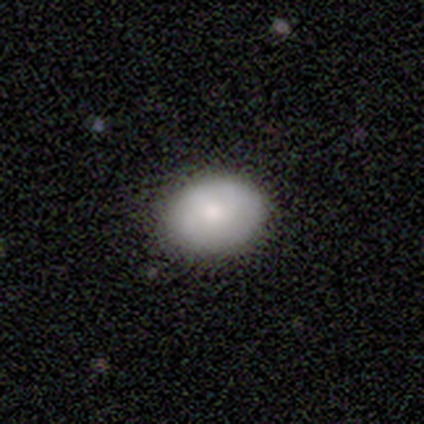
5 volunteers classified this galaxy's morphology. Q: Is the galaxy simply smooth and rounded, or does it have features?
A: smooth — 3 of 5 (60%).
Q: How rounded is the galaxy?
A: in between — 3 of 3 (100%).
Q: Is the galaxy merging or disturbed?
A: none — 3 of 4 (75%).